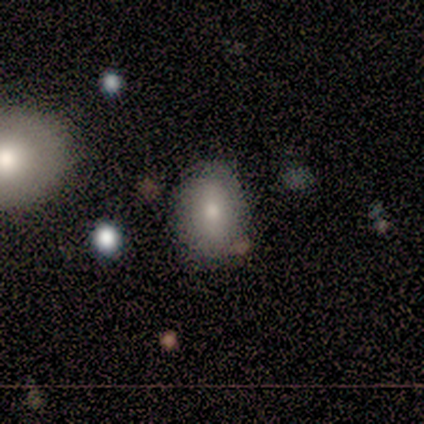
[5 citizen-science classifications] smooth 100%, featured or disk 0%, star or artifact 0%. Down the decision tree: how rounded — in between (80%); merging — none (80%).